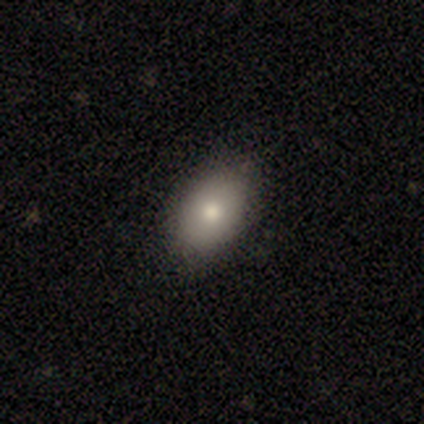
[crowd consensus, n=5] smooth-or-featured: smooth: 100% | featured or disk: 0% | star or artifact: 0%
  how-rounded: in between: 100% | round: 0% | cigar-shaped: 0%
  merging: none: 100% | minor disturbance: 0% | major disturbance: 0% | merger: 0%